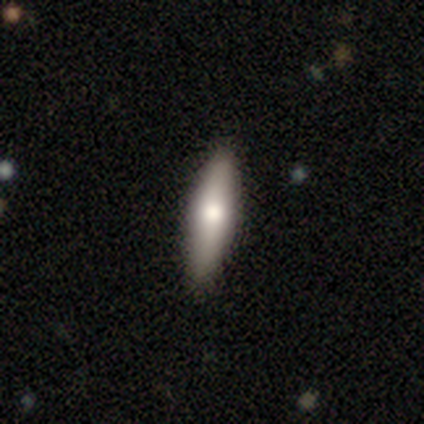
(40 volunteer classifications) Overall: smooth (60%; featured or disk 38%). How rounded: cigar-shaped (62%; in between 38%). Merging: none (92%).